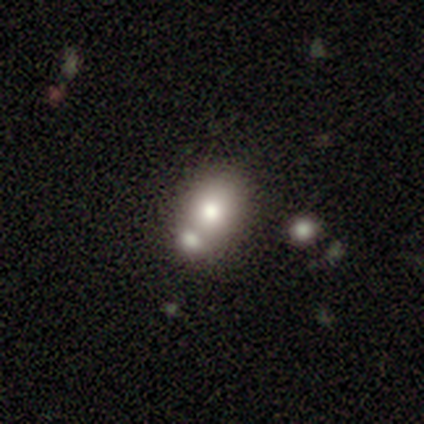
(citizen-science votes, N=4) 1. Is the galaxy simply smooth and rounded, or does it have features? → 75% smooth, 25% featured or disk, 0% star or artifact.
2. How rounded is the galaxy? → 67% in between, 33% round, 0% cigar-shaped.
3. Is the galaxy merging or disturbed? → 75% none, 25% merger, 0% minor disturbance, 0% major disturbance.